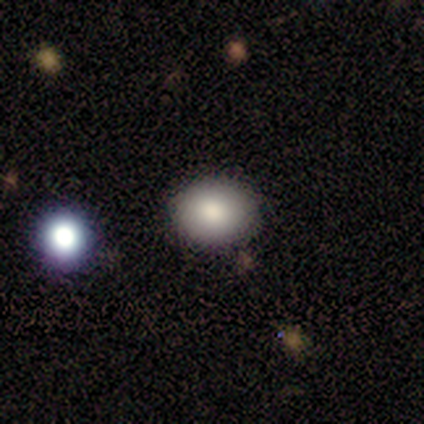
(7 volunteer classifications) This is clearly a smooth galaxy (86%). How rounded: possibly round (50%, tied with in between). Merging: clearly none (100%).